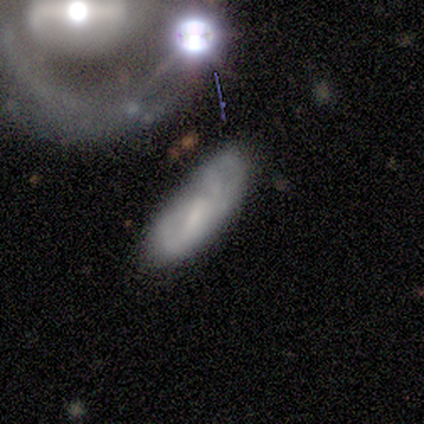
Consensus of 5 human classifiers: featured or disk 60%, smooth 20%, star or artifact 20%. Down the decision tree: edge-on disk — no (67%); bar — weak (50%, tied with no); spiral arms — yes (50%, tied with no); spiral arm count — can't tell (100%); spiral winding — tight (100%); bulge size — none (100%); merging — none (50%, tied with merger).